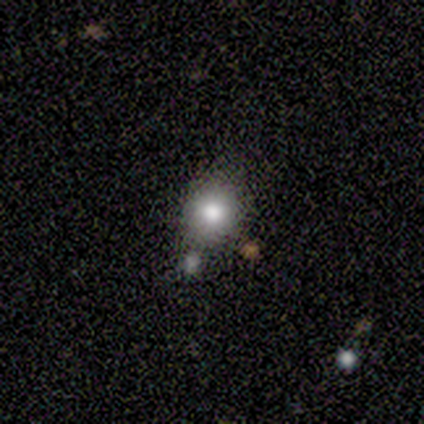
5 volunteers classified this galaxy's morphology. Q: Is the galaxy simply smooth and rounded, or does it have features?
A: smooth — 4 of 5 (80%).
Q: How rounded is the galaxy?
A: round — 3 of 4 (75%).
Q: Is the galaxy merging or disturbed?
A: none — 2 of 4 (50%).